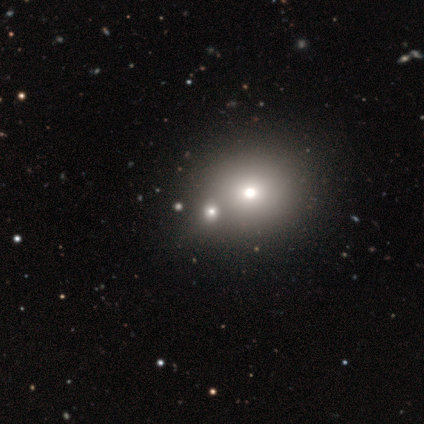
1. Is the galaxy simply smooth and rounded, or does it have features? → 71% smooth, 14% featured or disk, 14% star or artifact.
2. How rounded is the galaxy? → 80% round, 20% in between, 0% cigar-shaped.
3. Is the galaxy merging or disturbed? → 83% none, 17% merger, 0% minor disturbance, 0% major disturbance.